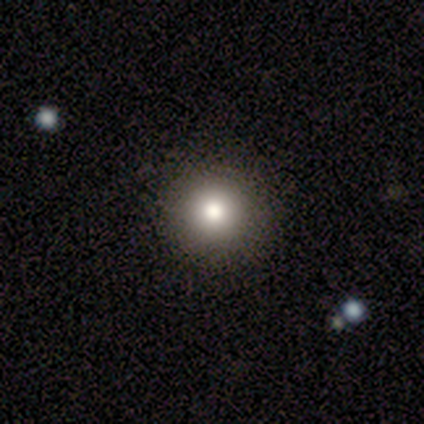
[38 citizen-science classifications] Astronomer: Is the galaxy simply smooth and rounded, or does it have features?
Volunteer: smooth — 87%.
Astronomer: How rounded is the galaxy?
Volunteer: round — 97%.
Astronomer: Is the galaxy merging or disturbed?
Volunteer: none — 89%.